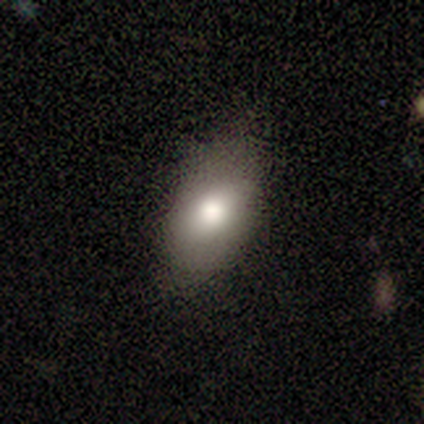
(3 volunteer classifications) smooth_or_featured: smooth (p=1.00)
how_rounded: in between (p=1.00)
merging: none (p=0.33) [tied with: minor disturbance p=0.33, major disturbance p=0.33]